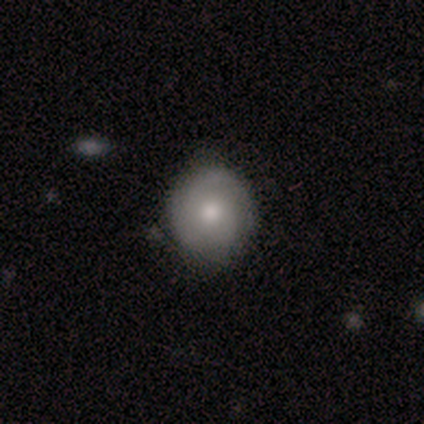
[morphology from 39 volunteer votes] A featured or disk galaxy (51%) with no bar (95%), 3 (33%) medium (53%) spiral arms (75%) and a moderate central bulge (60%).

Vote fractions:
- Smooth or featured? featured or disk: 51% / smooth: 46% / star or artifact: 3%
- Edge-on disk? no: 100% / yes: 0%
- Bar? no: 95% / weak: 5% / strong: 0%
- Spiral arms? yes: 75% / no: 25%
- Spiral winding? medium: 53% / tight: 47% / loose: 0%
- Spiral arm count? 3: 33% / 2: 27% / 1: 20% / 4: 13% / can't tell: 7% / more than 4: 0%
- Bulge size? moderate: 60% / small: 30% / large: 10% / dominant: 0% / none: 0%
- Merging? none: 79% / minor disturbance: 21% / major disturbance: 0% / merger: 0%